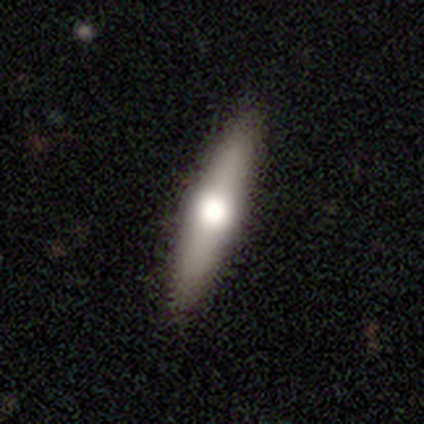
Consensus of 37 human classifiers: Q: Smooth or featured?
A: featured or disk (51%); runner-up: smooth (49%)
Q: Edge-on disk?
A: yes (95%); runner-up: no (5%)
Q: Edge-on bulge?
A: rounded (100%)
Q: Merging?
A: none (86%); runner-up: major disturbance (8%)